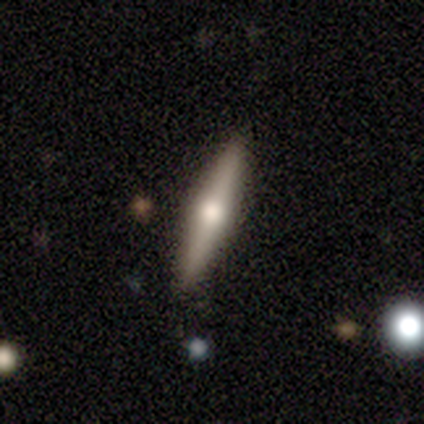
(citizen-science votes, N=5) Smooth or featured: featured or disk — 60% (smooth — 40%)
Edge-on disk: yes — 100%
Edge-on bulge: rounded — 100%
Merging: none — 100%